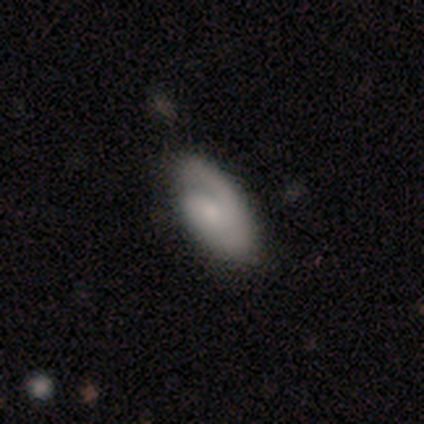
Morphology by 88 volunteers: smooth_or_featured: featured or disk (p=0.59) [alt: smooth p=0.39]
disk_edge_on: no (p=0.94) [alt: yes p=0.06]
bar: no (p=0.63) [alt: weak p=0.27]
has_spiral_arms: yes (p=0.90) [alt: no p=0.10]
spiral_winding: tight (p=0.68) [alt: medium p=0.20]
spiral_arm_count: 1 (p=0.59) [alt: 2 p=0.30]
bulge_size: small (p=0.59) [alt: moderate p=0.24]
merging: none (p=0.65) [alt: minor disturbance p=0.20]